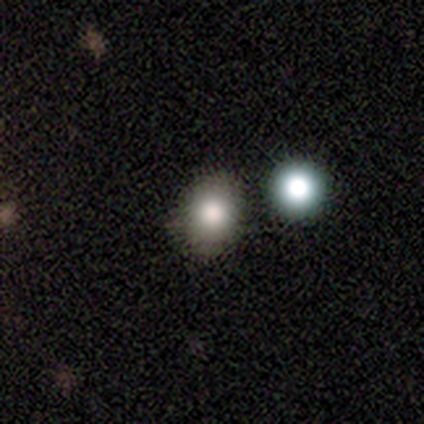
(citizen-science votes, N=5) Smooth or featured? smooth (100%)
How rounded? round (60%)
Merging? none (60%)